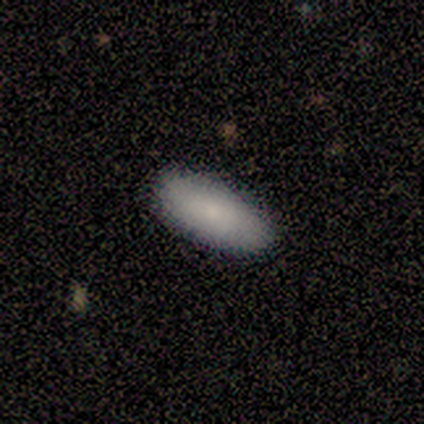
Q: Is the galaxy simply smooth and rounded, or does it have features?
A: smooth — 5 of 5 (100%).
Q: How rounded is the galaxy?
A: in between — 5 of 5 (100%).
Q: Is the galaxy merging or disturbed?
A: none — 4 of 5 (80%).